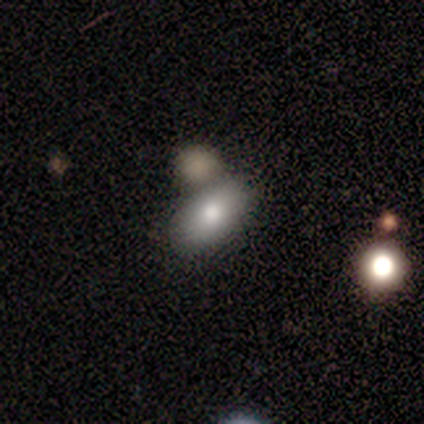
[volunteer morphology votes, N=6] Smooth or featured?
  - smooth: 100% *
  - featured or disk: 0%
  - star or artifact: 0%
How rounded?
  - in between: 100% *
  - round: 0%
  - cigar-shaped: 0%
Merging?
  - minor disturbance: 50% *
  - none: 33%
  - major disturbance: 17%
  - merger: 0%